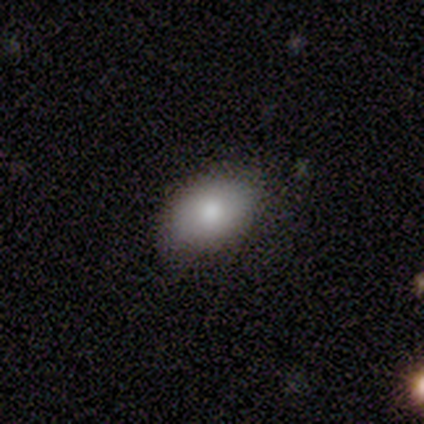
A smooth galaxy with no disk features (100%) that is in between round and cigar-shaped (100%). Merging: none (50%).